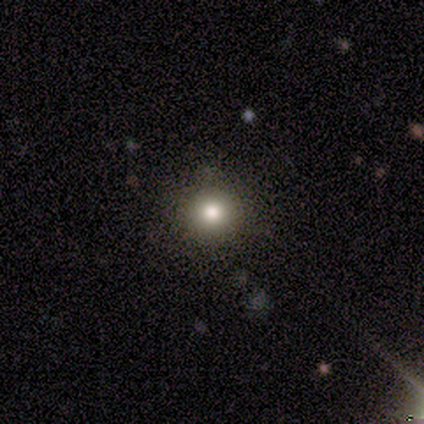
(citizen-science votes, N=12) Q: Smooth or featured?
A: smooth (83%); runner-up: featured or disk (8%)
Q: How rounded?
A: round (90%); runner-up: in between (10%)
Q: Merging?
A: none (100%)